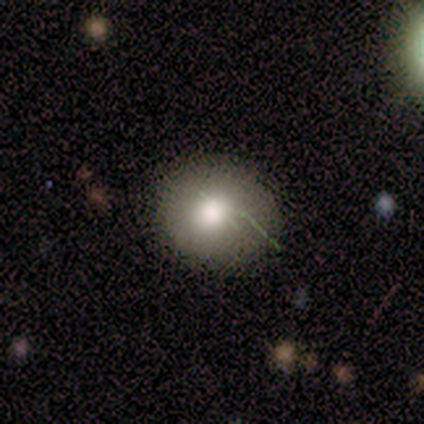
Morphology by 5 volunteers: Smooth or featured: smooth — 80% (star or artifact — 20%)
How rounded: round — 100%
Merging: none — 100%